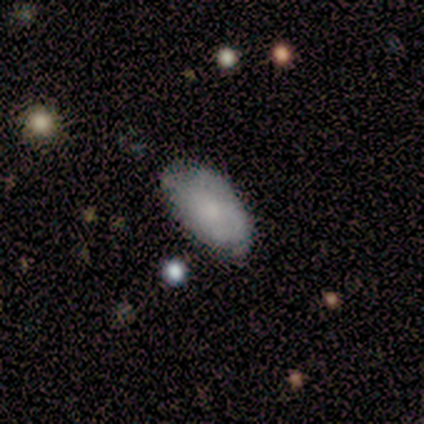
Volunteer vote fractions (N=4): A smooth galaxy with no disk features (75%) that is in between round and cigar-shaped (100%).

Vote fractions:
- Smooth or featured? smooth: 75% / featured or disk: 25% / star or artifact: 0%
- How rounded? in between: 100% / round: 0% / cigar-shaped: 0%
- Merging? none: 75% / minor disturbance: 25% / major disturbance: 0% / merger: 0%